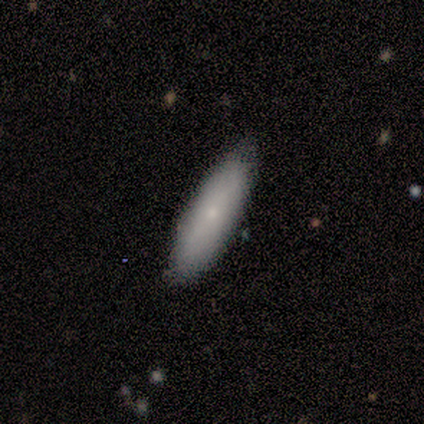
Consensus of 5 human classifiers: Smooth or featured? 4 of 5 (80%) said smooth. How rounded? 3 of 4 (75%) said in between. Merging? 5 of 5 (100%) said none.